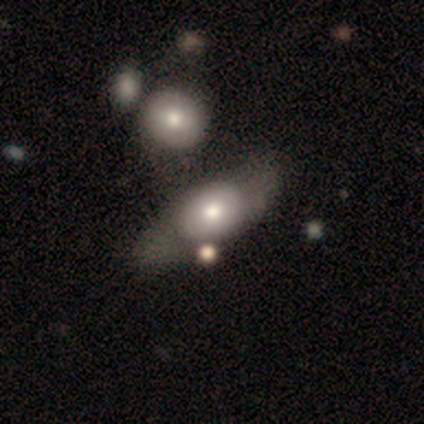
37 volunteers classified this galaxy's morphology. Smooth or featured: smooth — 62% (featured or disk — 32%)
How rounded: in between — 74% (round — 13%)
Merging: none — 43% (merger — 20%)